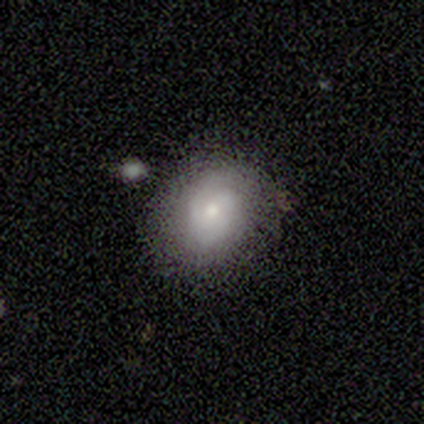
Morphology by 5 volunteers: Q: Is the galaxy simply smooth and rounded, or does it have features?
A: smooth — 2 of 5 (40%, tied with featured or disk).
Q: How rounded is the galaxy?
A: in between — 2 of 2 (100%).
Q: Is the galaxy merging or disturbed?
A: none — 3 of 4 (75%).